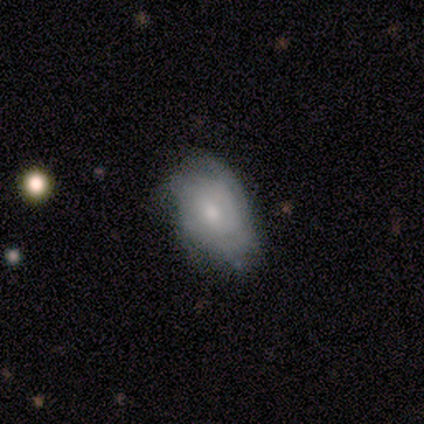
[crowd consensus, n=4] This appears to be a smooth galaxy with no disk features (50%, tied with featured or disk) that is in between round and cigar-shaped (100%). Merging: none (75%).